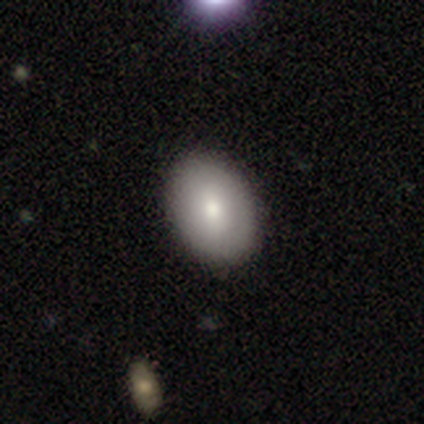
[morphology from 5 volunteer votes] smooth_or_featured: smooth (p=0.40) [tied with: featured or disk p=0.40]
how_rounded: round (p=0.50) [tied with: in between p=0.50]
merging: none (p=0.75) [alt: minor disturbance p=0.25]